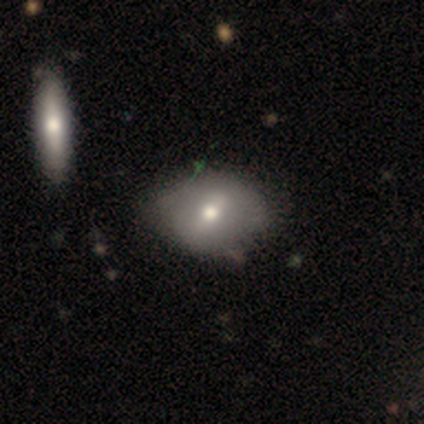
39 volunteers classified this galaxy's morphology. Volunteers were most divided on "how rounded": in between: 58%, round: 42%, cigar-shaped: 0%. More confident: merging — none (71%); smooth or featured — smooth (62%).